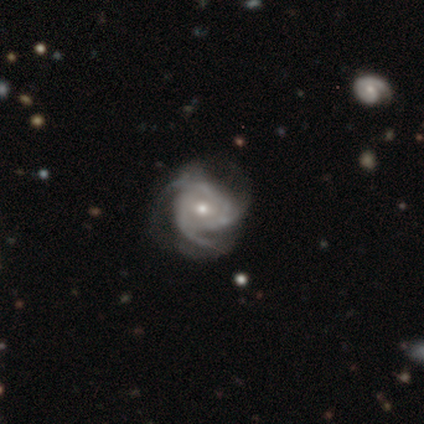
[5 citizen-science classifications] This is clearly a featured or disk galaxy (100%). It is clearly not viewed edge-on (80%). Bar: likely no (75%). Spiral arm pattern: clearly yes (100%). Spiral arm count: likely 3 (75%). Spiral winding: possibly medium (50%). Central bulge: likely moderate (75%). Merging: likely none (60%).